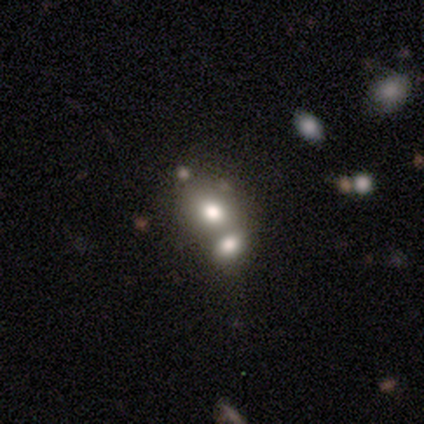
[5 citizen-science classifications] Volunteers were most divided on "merging": merger: 50%, none: 25%, minor disturbance: 25%, major disturbance: 0%. More confident: how rounded — in between (67%); smooth or featured — smooth (60%).